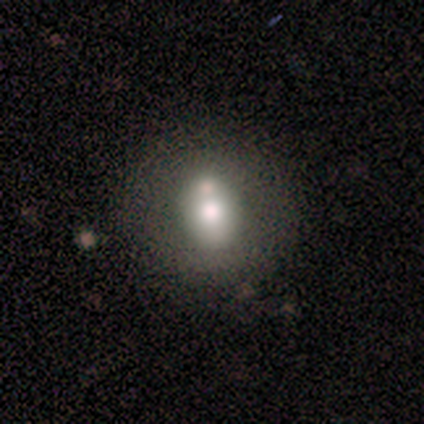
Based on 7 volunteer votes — Smooth or featured?
  - smooth: 57% *
  - star or artifact: 29%
  - featured or disk: 14%
How rounded?
  - round: 75% *
  - in between: 25%
  - cigar-shaped: 0%
Merging?
  - none: 40% * (tied)
  - merger: 40% * (tied)
  - minor disturbance: 20%
  - major disturbance: 0%